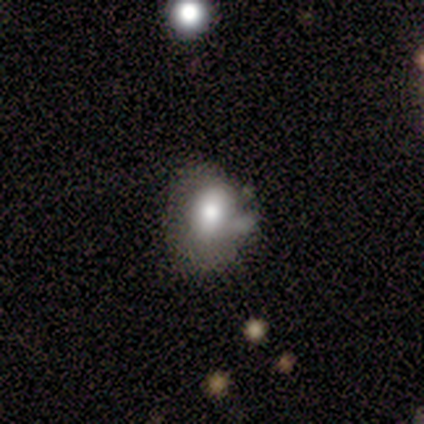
Q: Smooth or featured?
A: smooth (74%); runner-up: featured or disk (19%)
Q: How rounded?
A: in between (81%); runner-up: round (19%)
Q: Merging?
A: minor disturbance (41%); runner-up: none (31%)